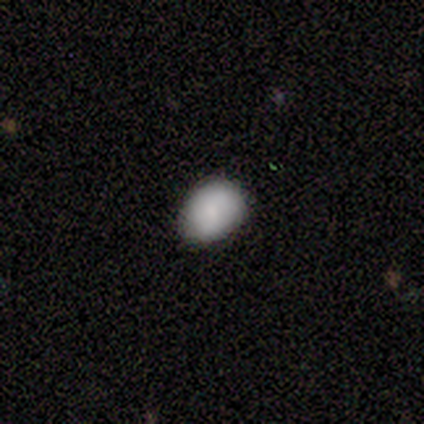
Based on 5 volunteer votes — smooth 100%, featured or disk 0%, star or artifact 0%. Down the decision tree: how rounded — in between (60%); merging — none (80%).